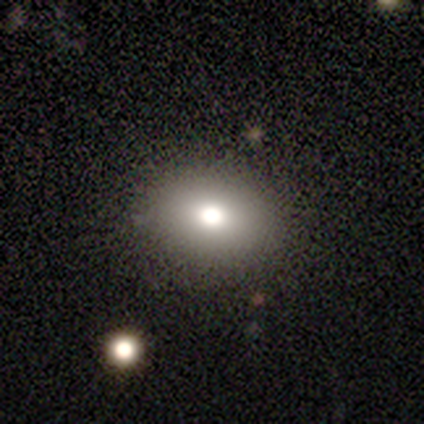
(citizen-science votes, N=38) smooth-or-featured: smooth: 76% | featured or disk: 13% | star or artifact: 11%
  how-rounded: in between: 62% | round: 38% | cigar-shaped: 0%
  merging: none: 88% | minor disturbance: 9% | major disturbance: 3% | merger: 0%